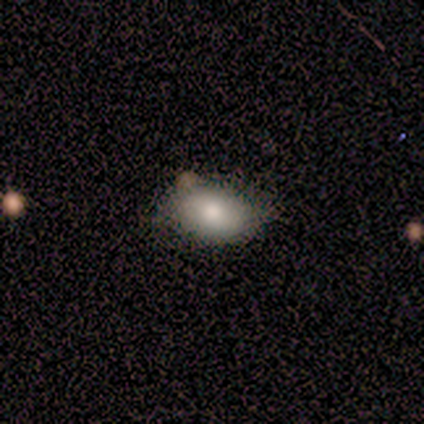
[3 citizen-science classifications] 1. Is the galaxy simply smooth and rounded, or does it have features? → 67% smooth, 33% star or artifact, 0% featured or disk.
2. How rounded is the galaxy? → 50% round (tied), 50% in between (tied), 0% cigar-shaped.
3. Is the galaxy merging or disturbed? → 100% none, 0% minor disturbance, 0% major disturbance, 0% merger.